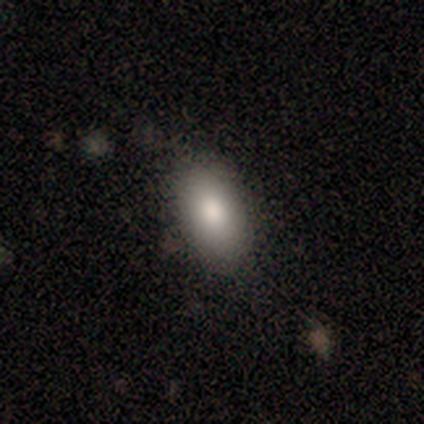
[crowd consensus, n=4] Consensus on every question: smooth or featured — smooth (100%); how rounded — in between (100%); merging — none (100%).